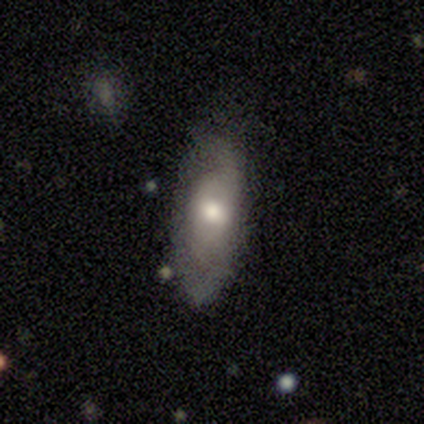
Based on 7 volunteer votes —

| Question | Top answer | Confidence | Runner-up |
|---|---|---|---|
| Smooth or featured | featured or disk | 71% | smooth (29%) |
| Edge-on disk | no | 100% | — |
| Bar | no | 80% | weak (20%) |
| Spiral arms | yes | 80% | no (20%) |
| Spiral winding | tight | 50% | tied: medium (50%) |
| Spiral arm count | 1 | 25% | tied: 2 (25%), more than 4 (25%), can't tell (25%) |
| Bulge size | moderate | 60% | dominant (20%) |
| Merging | none | 71% | minor disturbance (29%) |